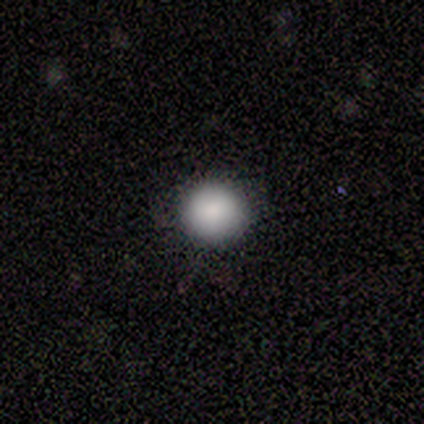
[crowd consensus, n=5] This is clearly a smooth galaxy (80%). How rounded: clearly round (100%). Merging: clearly none (100%).